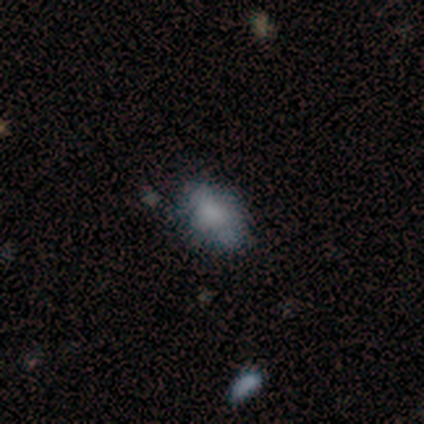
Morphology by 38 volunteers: This appears to be a smooth galaxy with no disk features (63%) that is in between round and cigar-shaped (92%). Merging: none (62%).